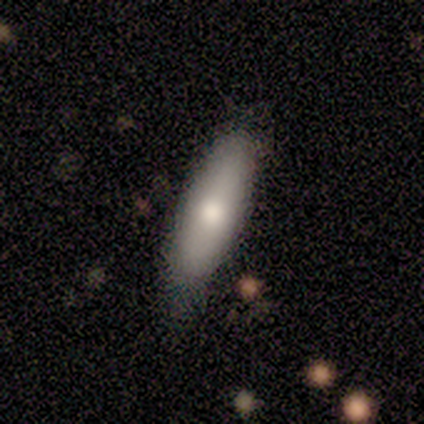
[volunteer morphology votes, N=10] Smooth or featured: smooth — 70% (featured or disk — 20%)
How rounded: cigar-shaped — 57% (in between — 43%)
Merging: none — 56% (minor disturbance — 44%)